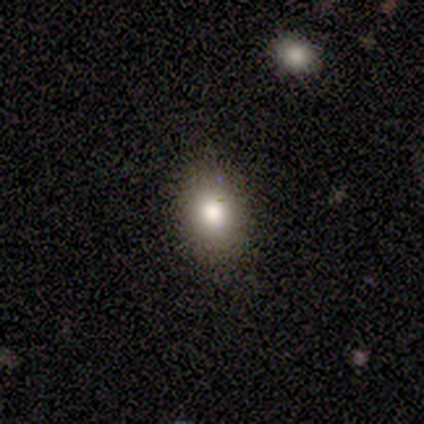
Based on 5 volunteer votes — This is clearly a smooth galaxy (100%). How rounded: clearly round (80%). Merging: clearly none (100%).